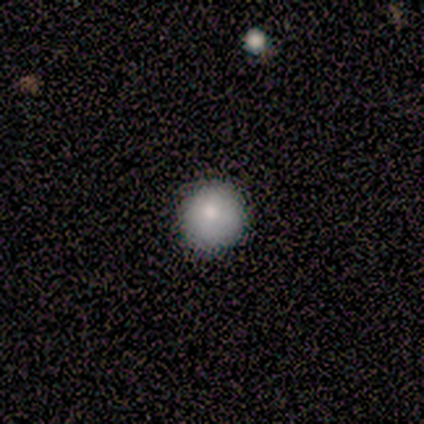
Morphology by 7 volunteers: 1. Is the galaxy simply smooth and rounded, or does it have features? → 86% smooth, 14% featured or disk, 0% star or artifact.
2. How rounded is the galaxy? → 100% round, 0% in between, 0% cigar-shaped.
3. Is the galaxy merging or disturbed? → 57% none, 29% minor disturbance, 14% merger, 0% major disturbance.